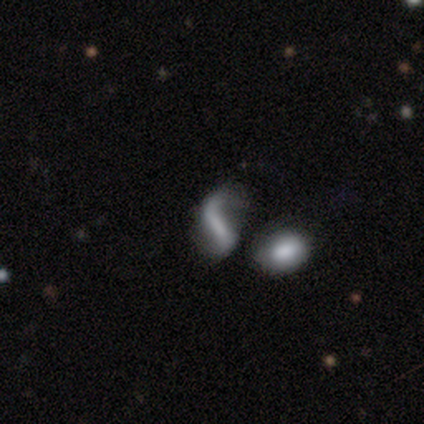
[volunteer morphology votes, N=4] A featured or disk galaxy (100%) with a strong bar (50%), 2 (100%) loose (100%) spiral arms (100%) and no central bulge (75%).

Vote fractions:
- Smooth or featured? featured or disk: 100% / smooth: 0% / star or artifact: 0%
- Edge-on disk? no: 100% / yes: 0%
- Bar? strong: 50% / weak: 25% / no: 25%
- Spiral arms? yes: 100% / no: 0%
- Spiral winding? loose: 100% / tight: 0% / medium: 0%
- Spiral arm count? 2: 100% / 1: 0% / 3: 0% / 4: 0% / more than 4: 0% / can't tell: 0%
- Bulge size? none: 75% / small: 25% / dominant: 0% / large: 0% / moderate: 0%
- Merging? none: 50% / major disturbance: 25% / merger: 25% / minor disturbance: 0%